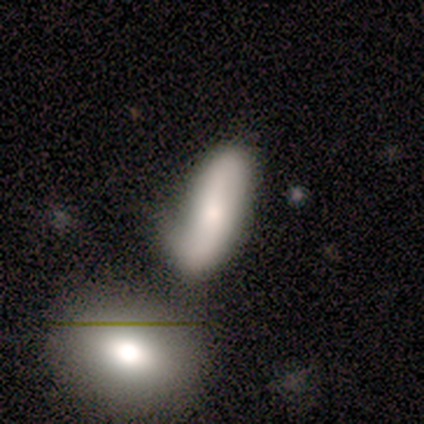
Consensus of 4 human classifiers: smooth-or-featured: smooth: 75% | star or artifact: 25% | featured or disk: 0%
  how-rounded: cigar-shaped: 67% | in between: 33% | round: 0%
  merging: none: 33% (tied) | minor disturbance: 33% (tied) | merger: 33% (tied) | major disturbance: 0%